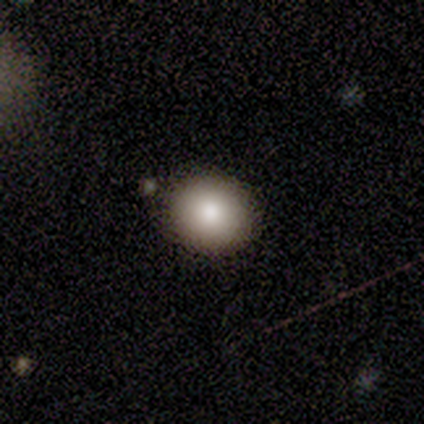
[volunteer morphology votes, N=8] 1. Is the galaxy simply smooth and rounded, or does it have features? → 88% smooth, 12% star or artifact, 0% featured or disk.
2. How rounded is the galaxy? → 86% round, 14% in between, 0% cigar-shaped.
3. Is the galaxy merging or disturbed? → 86% none, 14% minor disturbance, 0% major disturbance, 0% merger.